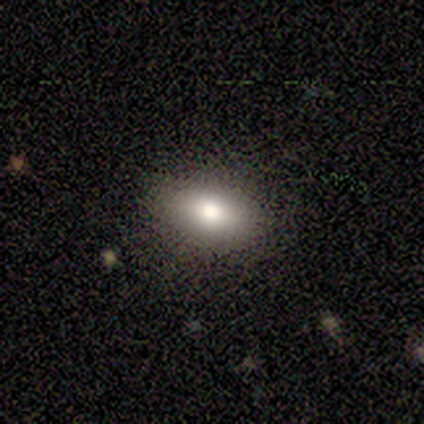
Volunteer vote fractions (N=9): smooth-or-featured: smooth: 78% | featured or disk: 22% | star or artifact: 0%
  how-rounded: in between: 86% | cigar-shaped: 14% | round: 0%
  merging: none: 89% | major disturbance: 11% | minor disturbance: 0% | merger: 0%